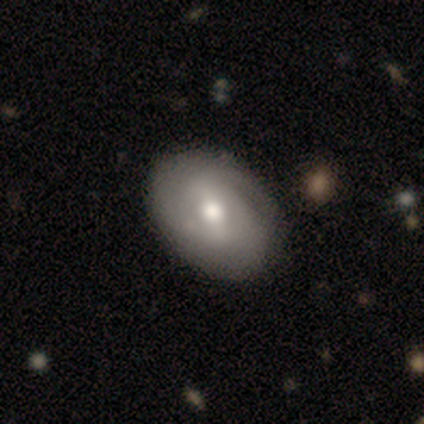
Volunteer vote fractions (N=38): This is possibly a featured or disk galaxy (55%). It is clearly not viewed edge-on (90%). Bar: possibly weak (58%). Spiral arm pattern: likely yes (79%). Spiral arm count: marginally 2 (40%). Spiral winding: marginally tight (40%, tied with medium). Central bulge: likely moderate (74%). Merging: possibly none (54%).